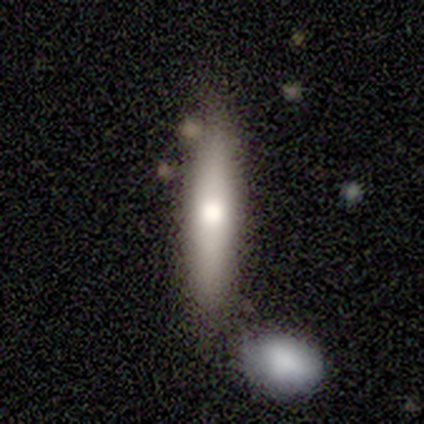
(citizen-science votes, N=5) smooth-or-featured: featured or disk: 60% | smooth: 40% | star or artifact: 0%
  disk-edge-on: yes: 100% | no: 0%
    edge-on-bulge: rounded: 100% | boxy: 0% | none: 0%
  merging: none: 80% | merger: 20% | minor disturbance: 0% | major disturbance: 0%